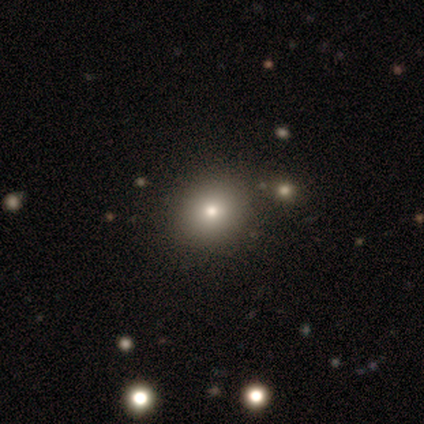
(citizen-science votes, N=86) Smooth or featured: smooth — 67% (star or artifact — 23%)
How rounded: round — 78% (in between — 21%)
Merging: none — 91% (minor disturbance — 5%)